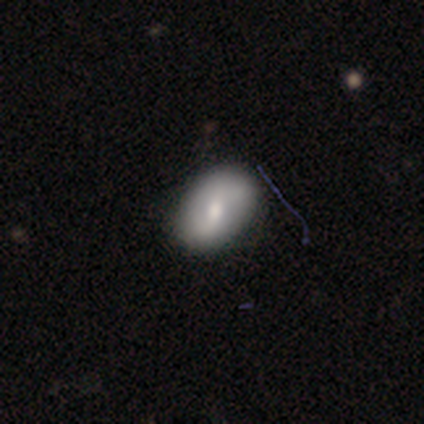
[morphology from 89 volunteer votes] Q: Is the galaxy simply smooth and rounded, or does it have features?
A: smooth — 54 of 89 (61%).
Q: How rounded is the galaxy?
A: in between — 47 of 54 (87%).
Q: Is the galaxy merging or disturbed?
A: none — 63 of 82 (77%).